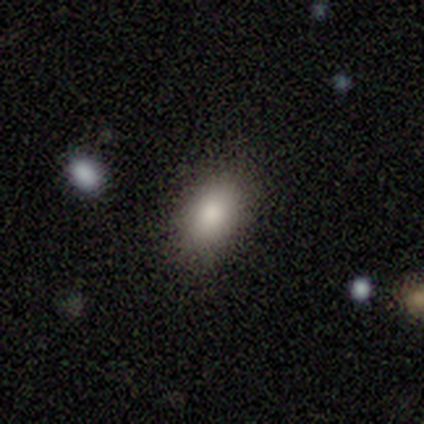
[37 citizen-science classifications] This is clearly a smooth galaxy (92%). How rounded: likely in between (76%). Merging: clearly none (95%).